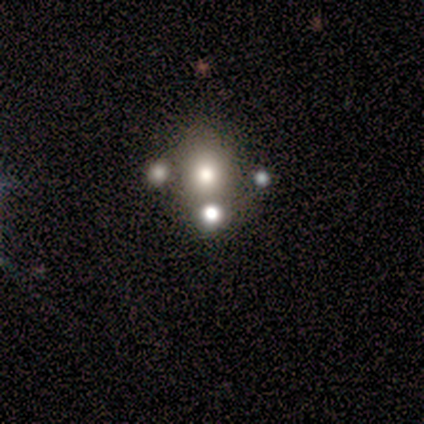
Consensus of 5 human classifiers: This is likely a smooth galaxy (60%). How rounded: clearly in between (100%). Merging: possibly none (50%, tied with merger).